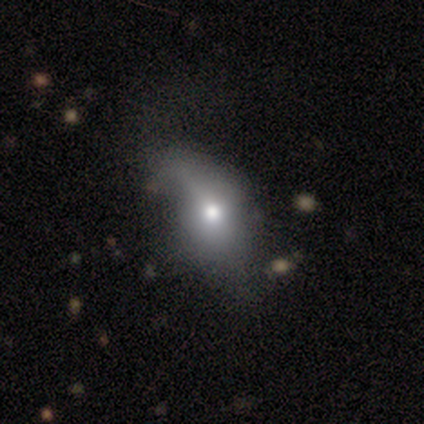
This is clearly a smooth galaxy (100%). How rounded: clearly in between (80%). Merging: marginally minor disturbance (40%, tied with major disturbance).